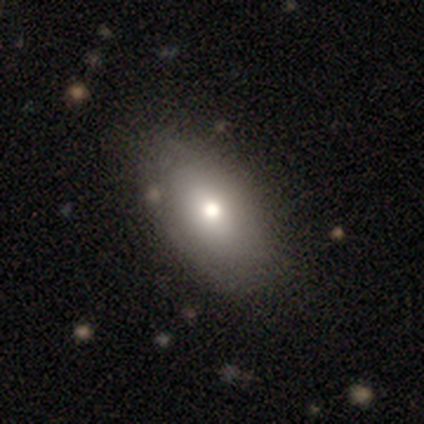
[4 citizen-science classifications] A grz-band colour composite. It shows a smooth galaxy with no disk features (75%) that is in between round and cigar-shaped (100%). Merging: none (100%).